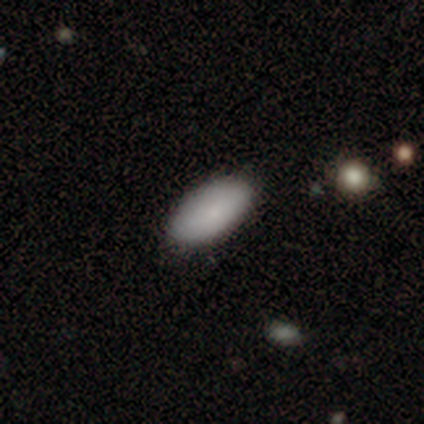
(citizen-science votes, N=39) A smooth galaxy with no disk features (92%) that is in between round and cigar-shaped (100%). Merging: none (92%).